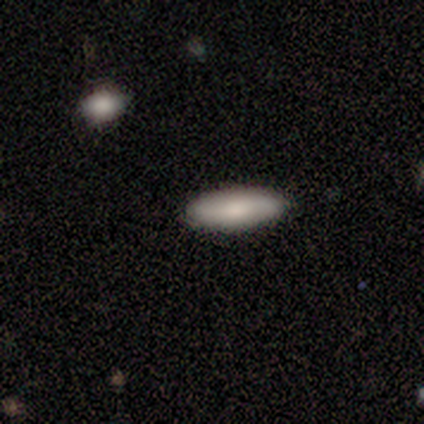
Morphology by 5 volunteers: Q: Smooth or featured?
A: smooth (100%)
Q: How rounded?
A: in between (40%); tied with: cigar-shaped (40%)
Q: Merging?
A: none (100%)